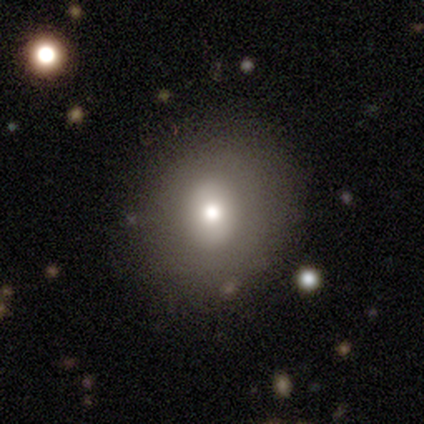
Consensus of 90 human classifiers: This is likely a smooth galaxy (63%). How rounded: likely round (77%). Merging: clearly none (81%).